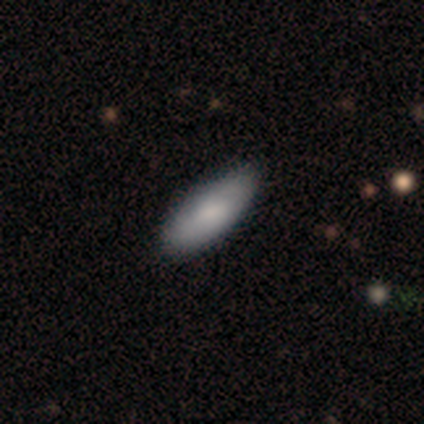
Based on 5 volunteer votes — Smooth or featured: featured or disk — 60% (smooth — 40%)
Edge-on disk: no — 100%
Bar: no — 67% (weak — 33%)
Spiral arms: no — 67% (yes — 33%)
Bulge size: moderate — 100%
Merging: none — 100%